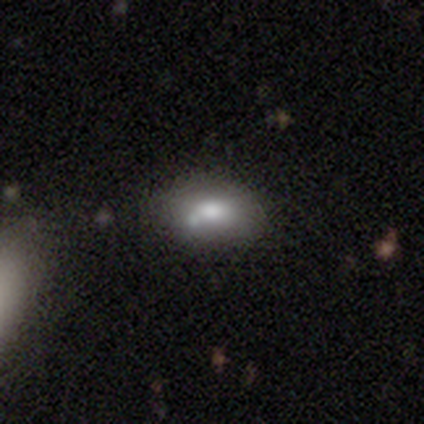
Morphology: type=smooth (75%); roundness=in between (67%); merging=none (50%, tied with minor disturbance).